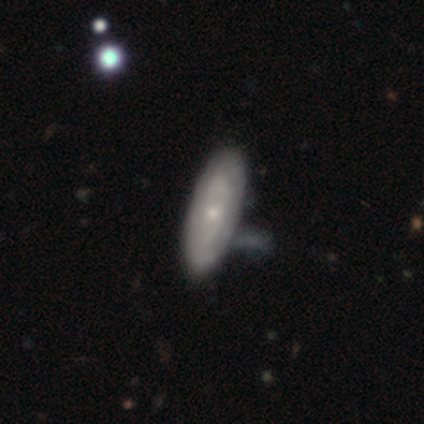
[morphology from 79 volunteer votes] Smooth or featured?
  - featured or disk: 61% *
  - smooth: 34%
  - star or artifact: 5%
Edge-on disk?
  - no: 75% *
  - yes: 25%
Bar?
  - no: 86% *
  - weak: 14%
  - strong: 0%
Spiral arms?
  - yes: 50% * (tied)
  - no: 50% * (tied)
Spiral winding?
  - tight: 72% *
  - medium: 17%
  - loose: 11%
Spiral arm count?
  - can't tell: 72% *
  - 2: 28%
  - 1: 0%
  - 3: 0%
  - 4: 0%
  - more than 4: 0%
Bulge size?
  - small: 61% *
  - moderate: 33%
  - large: 3%
  - none: 3%
  - dominant: 0%
Merging?
  - none: 27% *
  - merger: 17%
  - minor disturbance: 16%
  - major disturbance: 4%